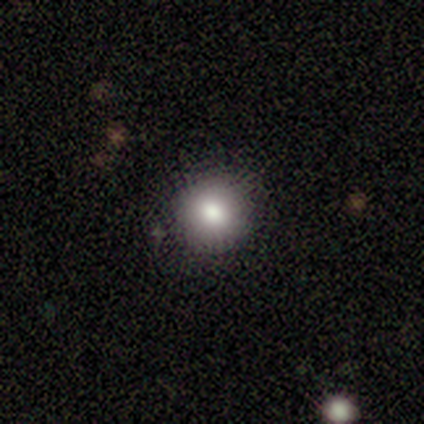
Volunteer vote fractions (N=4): A smooth galaxy with no disk features (100%) that is round (75%). Merging: none (100%).